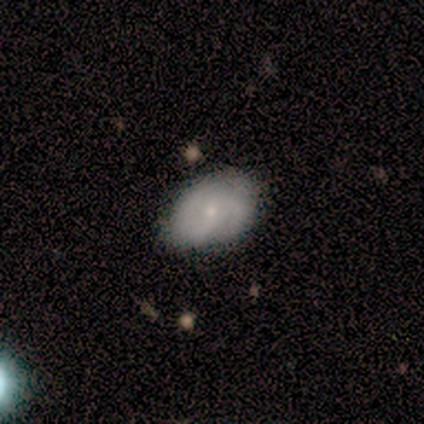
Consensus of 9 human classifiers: smooth-or-featured: smooth: 44% (tied) | featured or disk: 44% (tied) | star or artifact: 11%
  how-rounded: in between: 100% | round: 0% | cigar-shaped: 0%
  merging: none: 62% | minor disturbance: 38% | major disturbance: 0% | merger: 0%